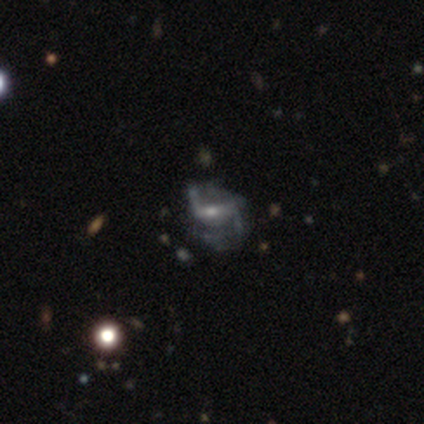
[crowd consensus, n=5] smooth_or_featured: featured or disk (p=0.80) [alt: smooth p=0.20]
disk_edge_on: no (p=1.00)
bar: weak (p=1.00)
has_spiral_arms: yes (p=0.75) [alt: no p=0.25]
spiral_winding: loose (p=0.67) [alt: tight p=0.33]
spiral_arm_count: 2 (p=0.67) [alt: can't tell p=0.33]
bulge_size: small (p=1.00)
merging: none (p=0.40) [tied with: major disturbance p=0.40]